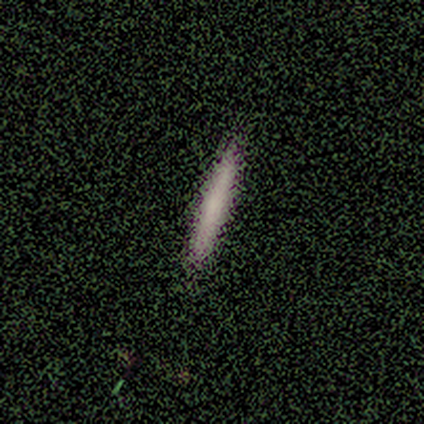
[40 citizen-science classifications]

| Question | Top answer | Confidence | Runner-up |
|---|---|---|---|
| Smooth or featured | smooth | 65% | featured or disk (35%) |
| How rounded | cigar-shaped | 96% | in between (4%) |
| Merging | none | 70% | merger (2%) |